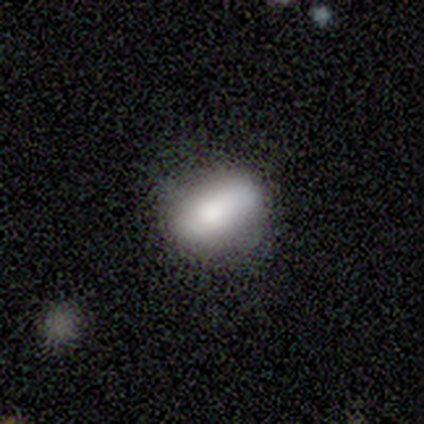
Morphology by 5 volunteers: This is clearly a smooth galaxy (100%). How rounded: clearly in between (80%). Merging: clearly none (100%).